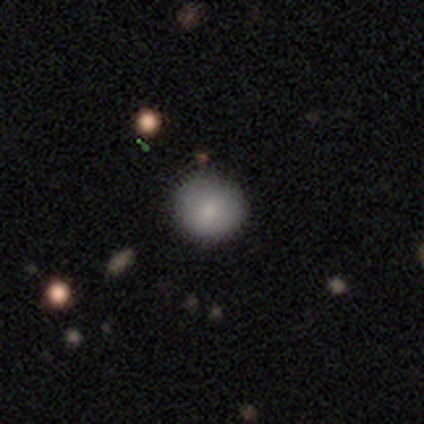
Overall: smooth (100%). How rounded: round (60%; in between 40%). Merging: none (100%).